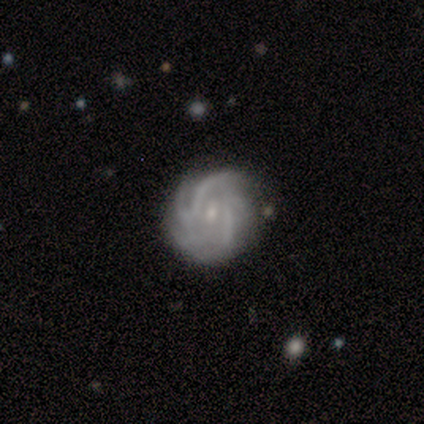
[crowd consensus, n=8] smooth-or-featured: featured or disk: 100% | smooth: 0% | star or artifact: 0%
  disk-edge-on: no: 100% | yes: 0%
    bar: no: 88% | weak: 12% | strong: 0%
    has-spiral-arms: yes: 100% | no: 0%
      spiral-winding: tight: 75% | medium: 12% | loose: 12%
      spiral-arm-count: can't tell: 50% | more than 4: 38% | 4: 12% | 1: 0% | 2: 0% | 3: 0%
    bulge-size: small: 75% | moderate: 25% | dominant: 0% | large: 0% | none: 0%
  merging: none: 62% | minor disturbance: 38% | major disturbance: 0% | merger: 0%